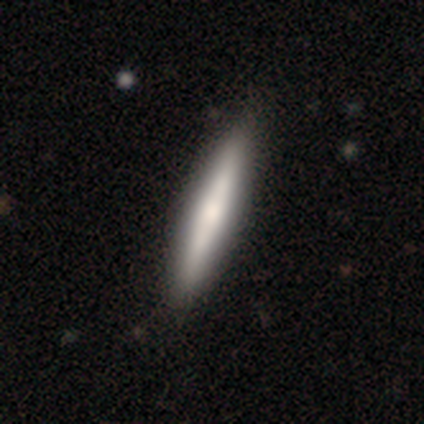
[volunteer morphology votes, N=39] A smooth galaxy with no disk features (59%) that is cigar-shaped (96%). Merging: none (82%).